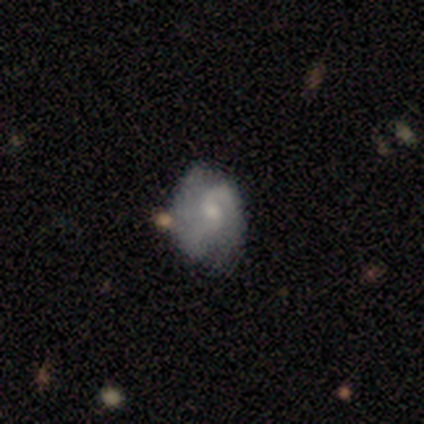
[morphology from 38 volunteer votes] Smooth or featured? 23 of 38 (61%) said featured or disk. Edge-on disk? 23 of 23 (100%) said no. Bar? 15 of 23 (65%) said no. Spiral arms? 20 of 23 (87%) said yes. Spiral winding? 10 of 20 (50%) said medium. Spiral arm count? 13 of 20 (65%) said 2. Bulge size? 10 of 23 (43%) said small. Merging? 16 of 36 (44%) said none.